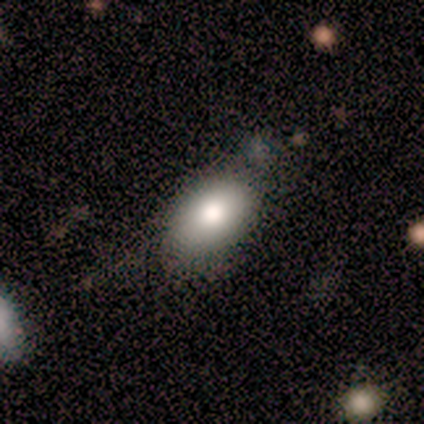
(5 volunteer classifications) A smooth galaxy with no disk features (80%) that is in between round and cigar-shaped (100%). Merging: none (75%).